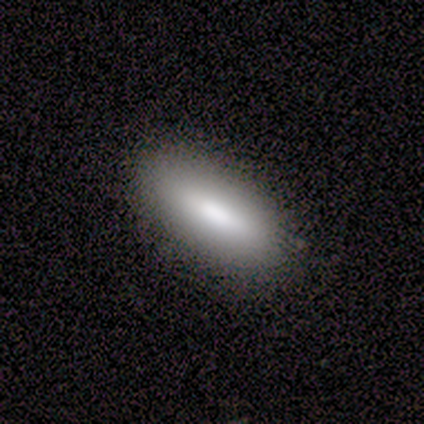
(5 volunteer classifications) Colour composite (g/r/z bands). It shows a smooth galaxy with no disk features (60%) that is in between round and cigar-shaped (67%). Merging: none (75%).